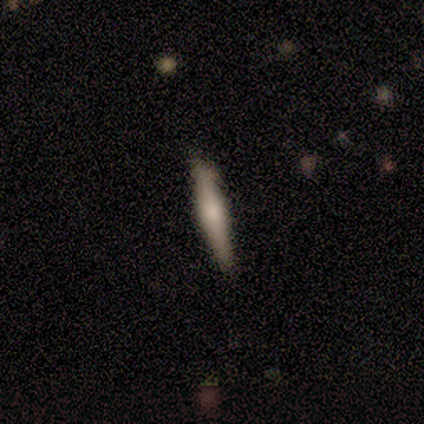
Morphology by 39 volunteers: featured or disk 56%, smooth 44%, star or artifact 0%. Down the decision tree: edge-on disk — yes (95%); edge-on bulge — rounded (86%); merging — none (59%).